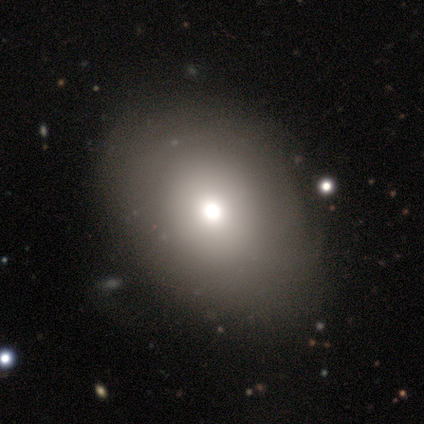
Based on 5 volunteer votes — A smooth galaxy with no disk features (80%) that is round (50%, tied with in between).

Vote fractions:
- Smooth or featured? smooth: 80% / featured or disk: 20% / star or artifact: 0%
- How rounded? round: 50% (tied) / in between: 50% (tied) / cigar-shaped: 0%
- Merging? none: 80% / minor disturbance: 20% / major disturbance: 0% / merger: 0%